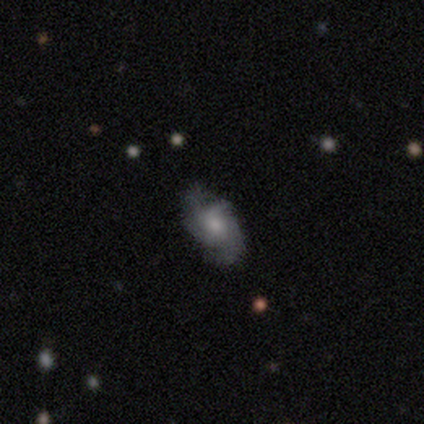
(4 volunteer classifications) A featured or disk galaxy (75%) with no bar (100%), 2 (50%, tied with 3) tight (50%, tied with medium) spiral arms (67%) and a moderate central bulge (67%). Merging: none (75%).